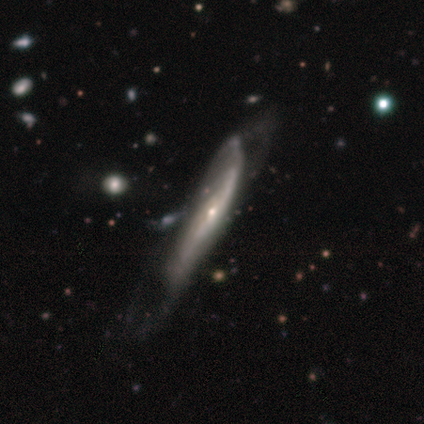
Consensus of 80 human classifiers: Overall: featured or disk (88%). Edge-on disk: yes (59%; no 41%). Edge-on bulge: rounded (66%; none 34%). Merging: minor disturbance (19%; major disturbance 18%).